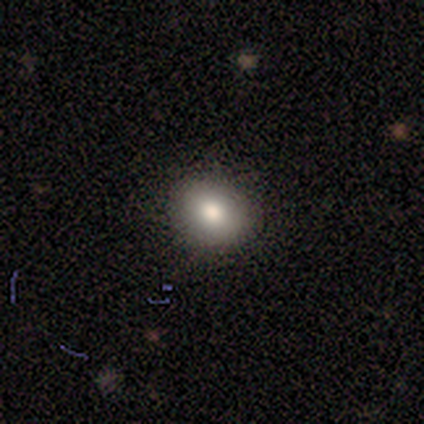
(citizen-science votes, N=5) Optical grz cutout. It shows a smooth galaxy with no disk features (80%) that is round (50%, tied with in between). Merging: none (75%).